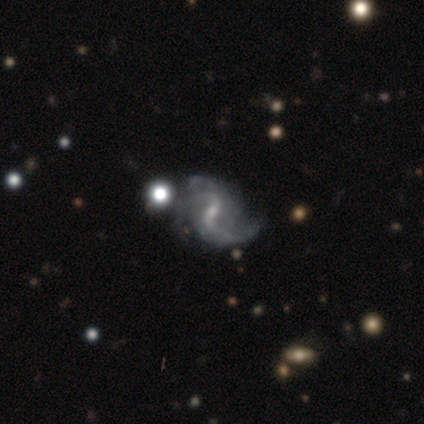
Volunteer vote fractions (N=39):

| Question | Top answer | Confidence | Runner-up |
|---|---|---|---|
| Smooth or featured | featured or disk | 92% | star or artifact (5%) |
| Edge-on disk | no | 100% | — |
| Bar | weak | 53% | strong (28%) |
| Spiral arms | yes | 97% | no (3%) |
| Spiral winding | loose | 66% | medium (29%) |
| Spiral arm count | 2 | 77% | 3 (17%) |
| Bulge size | small | 89% | moderate (8%) |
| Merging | none | 46% | minor disturbance (27%) |